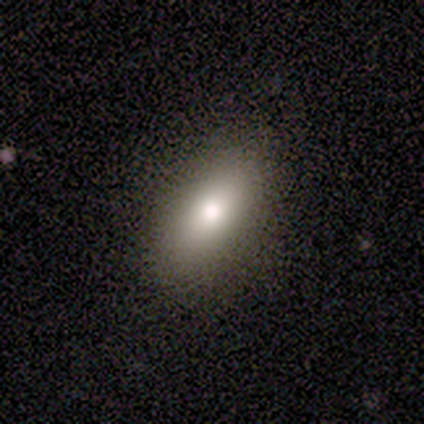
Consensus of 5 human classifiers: Smooth or featured: smooth — 80% (featured or disk — 20%)
How rounded: in between — 75% (cigar-shaped — 25%)
Merging: none — 80% (minor disturbance — 20%)